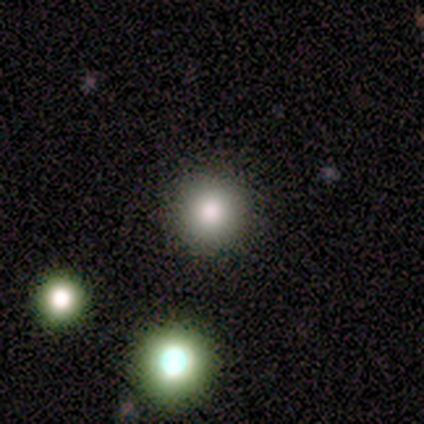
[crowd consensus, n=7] smooth_or_featured: smooth (p=0.86) [alt: featured or disk p=0.14]
how_rounded: round (p=0.83) [alt: in between p=0.17]
merging: none (p=0.71) [alt: minor disturbance p=0.14]